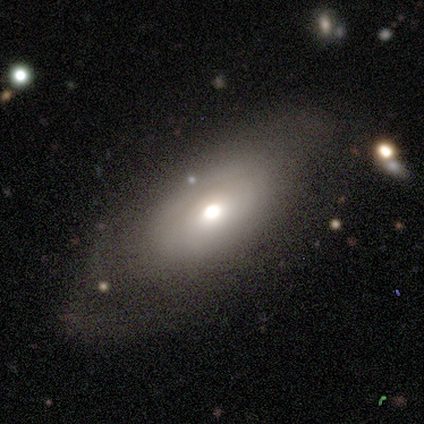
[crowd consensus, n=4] A smooth galaxy with no disk features (75%) that is in between round and cigar-shaped (100%). Merging: none (50%, tied with minor disturbance).